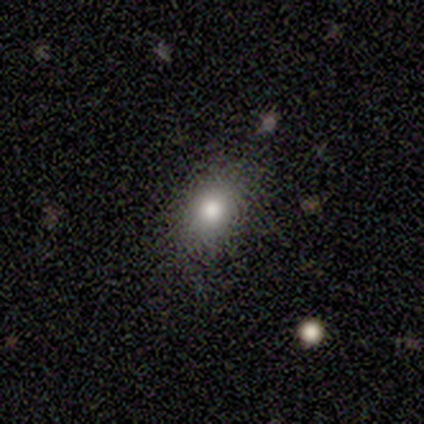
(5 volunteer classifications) Smooth or featured?
  - smooth: 60% *
  - featured or disk: 20%
  - star or artifact: 20%
How rounded?
  - in between: 100% *
  - round: 0%
  - cigar-shaped: 0%
Merging?
  - none: 75% *
  - minor disturbance: 25%
  - major disturbance: 0%
  - merger: 0%